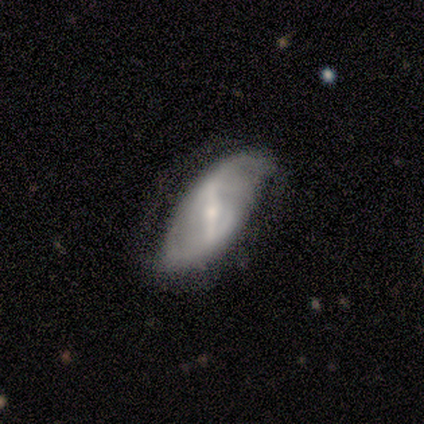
This appears to be a featured or disk galaxy (100%) with a strong bar (80%), 2 (75%) medium (75%) spiral arms (80%) and a small central bulge (80%). Merging: none (80%).